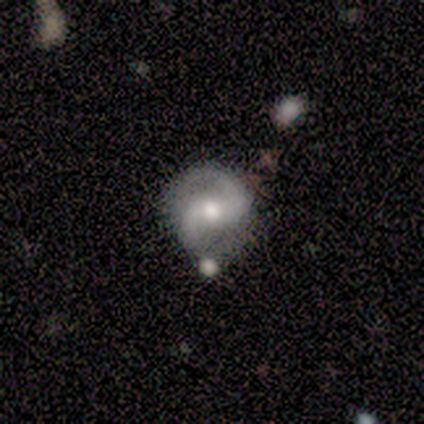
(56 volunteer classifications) Volunteers were most divided on "bar": weak: 48%, no: 32%, strong: 20%. More confident: edge-on disk — no (100%); spiral arms — yes (98%); spiral arm count — 2 (96%); smooth or featured — featured or disk (89%); bulge size — moderate (76%); merging — none (67%); spiral winding — medium (63%).